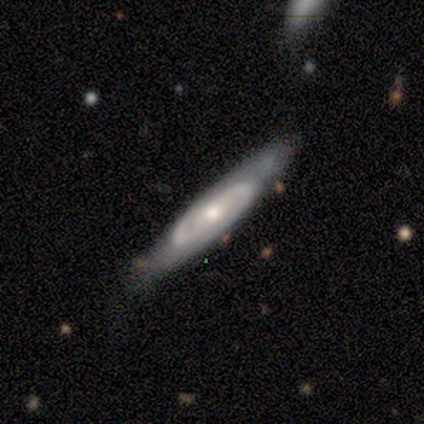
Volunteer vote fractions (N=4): Q: Smooth or featured?
A: featured or disk (50%); runner-up: smooth (25%)
Q: Edge-on disk?
A: yes (50%); tied with: no (50%)
Q: Edge-on bulge?
A: none (100%)
Q: Merging?
A: none (67%); runner-up: minor disturbance (33%)